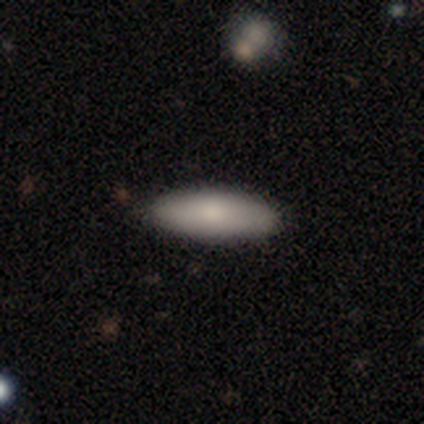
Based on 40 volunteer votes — Morphology: type=smooth (80%); roundness=in between (59%); merging=none (95%).